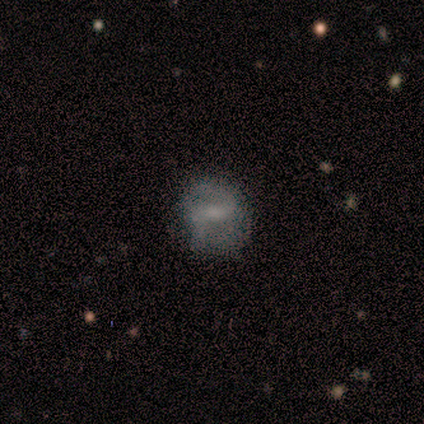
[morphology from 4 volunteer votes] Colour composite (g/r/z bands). It shows a smooth galaxy with no disk features (50%, tied with featured or disk) that is round (50%, tied with in between). Merging: none (75%).